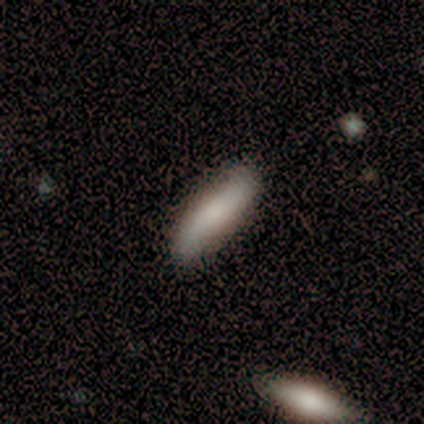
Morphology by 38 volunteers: Smooth or featured: smooth — 68% (featured or disk — 26%)
How rounded: cigar-shaped — 65% (in between — 31%)
Merging: none — 64% (merger — 8%)